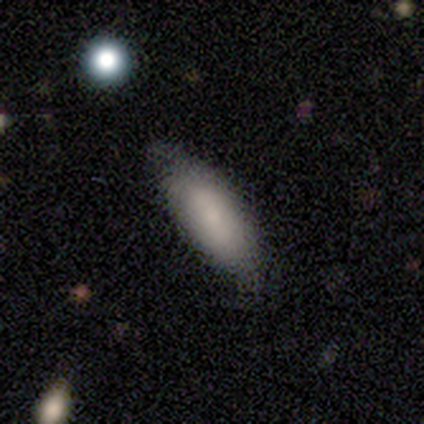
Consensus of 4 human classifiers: A smooth galaxy with no disk features (75%) that is in between round and cigar-shaped (67%).

Vote fractions:
- Smooth or featured? smooth: 75% / star or artifact: 25% / featured or disk: 0%
- How rounded? in between: 67% / cigar-shaped: 33% / round: 0%
- Merging? none: 67% / minor disturbance: 33% / major disturbance: 0% / merger: 0%